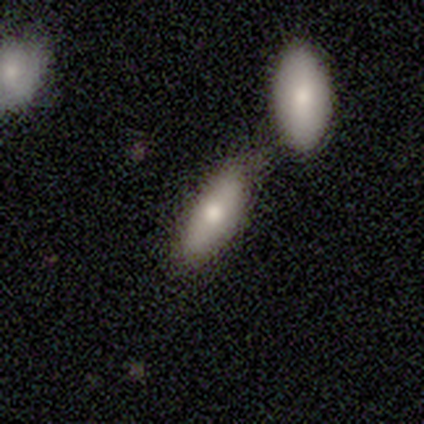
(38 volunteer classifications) smooth 76%, featured or disk 21%, star or artifact 3%. Down the decision tree: how rounded — in between (62%); merging — none (43%).